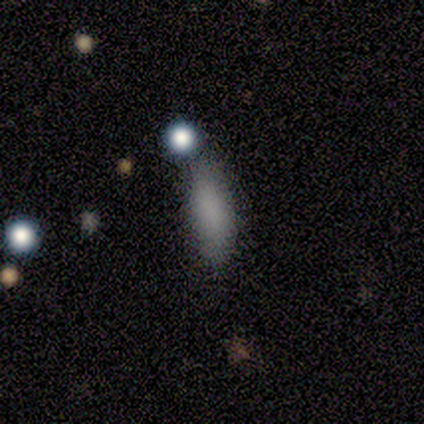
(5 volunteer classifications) Smooth or featured: smooth — 100%
How rounded: in between — 100%
Merging: none — 80% (minor disturbance — 20%)